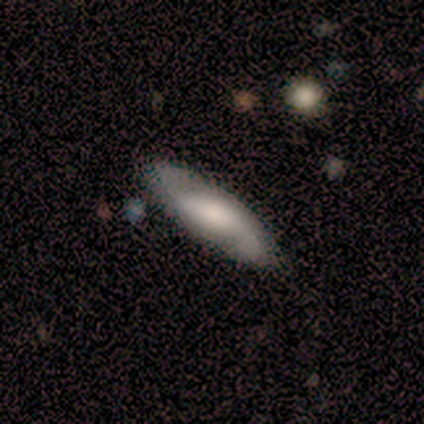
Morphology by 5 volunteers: smooth-or-featured: featured or disk: 100% | smooth: 0% | star or artifact: 0%
  disk-edge-on: no: 100% | yes: 0%
    bar: strong: 40% (tied) | no: 40% (tied) | weak: 20%
    has-spiral-arms: yes: 80% | no: 20%
      spiral-winding: loose: 50% | tight: 25% | medium: 25%
      spiral-arm-count: 2: 100% | 1: 0% | 3: 0% | 4: 0% | more than 4: 0% | can't tell: 0%
    bulge-size: moderate: 60% | large: 20% | none: 20% | dominant: 0% | small: 0%
  merging: none: 60% | minor disturbance: 40% | major disturbance: 0% | merger: 0%